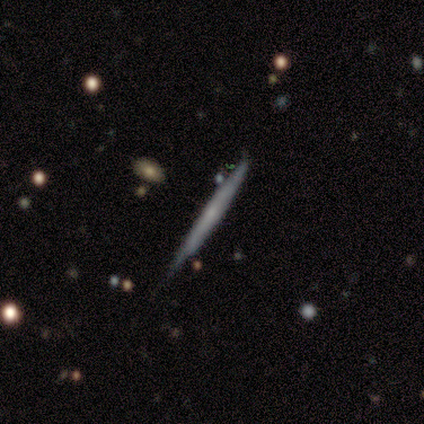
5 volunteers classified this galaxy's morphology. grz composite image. It shows a featured or disk galaxy (100%) viewed edge-on (60%) with no central bulge (67%). Merging: none (100%).